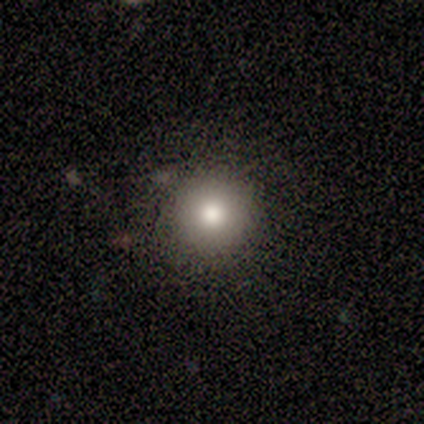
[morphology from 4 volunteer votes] A smooth galaxy with no disk features (75%) that is round (100%).

Vote fractions:
- Smooth or featured? smooth: 75% / featured or disk: 25% / star or artifact: 0%
- How rounded? round: 100% / in between: 0% / cigar-shaped: 0%
- Merging? none: 100% / minor disturbance: 0% / major disturbance: 0% / merger: 0%